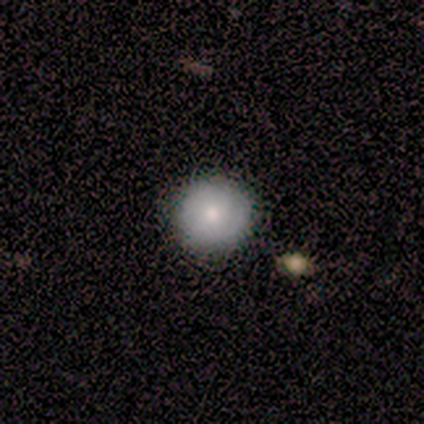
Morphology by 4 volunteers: smooth_or_featured: smooth (p=1.00)
how_rounded: round (p=1.00)
merging: none (p=1.00)